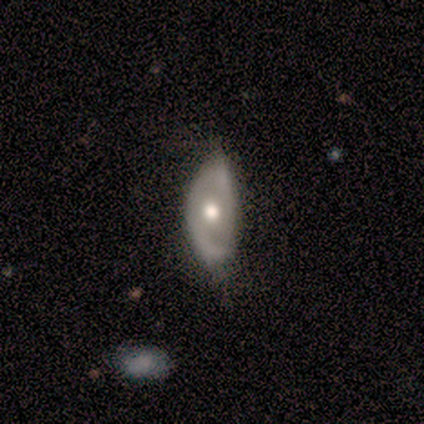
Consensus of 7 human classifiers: This appears to be a featured or disk galaxy (71%) with no bar (100%), no spiral arms (60%) and a moderate central bulge (100%). Merging: none (57%).